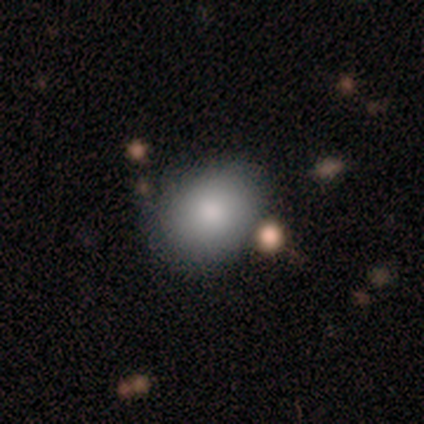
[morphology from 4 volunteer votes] Volunteers were most divided on "how rounded" (2-way tie): round: 50%, in between: 50%, cigar-shaped: 0%. More confident: smooth or featured — smooth (100%); merging — minor disturbance (50%).